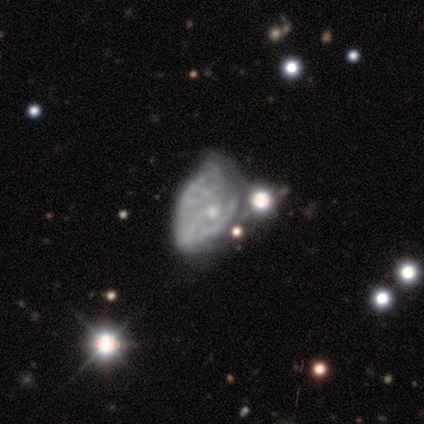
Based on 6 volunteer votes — Smooth or featured?
  - featured or disk: 83% *
  - smooth: 17%
  - star or artifact: 0%
Edge-on disk?
  - no: 100% *
  - yes: 0%
Bar?
  - no: 100% *
  - strong: 0%
  - weak: 0%
Spiral arms?
  - no: 80% *
  - yes: 20%
Bulge size?
  - none: 60% *
  - moderate: 20%
  - small: 20%
  - dominant: 0%
  - large: 0%
Merging?
  - merger: 50% *
  - major disturbance: 33%
  - none: 17%
  - minor disturbance: 0%